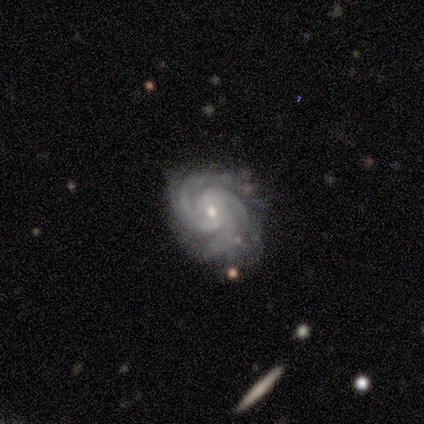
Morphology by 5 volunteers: Volunteers were most divided on "bar": no: 60%, strong: 40%, weak: 0%. Remaining: smooth or featured — featured or disk (100%); edge-on disk — no (100%); spiral arms — yes (100%); spiral winding — tight (80%); merging — none (80%); bulge size — small (60%); spiral arm count — 3 (40%).